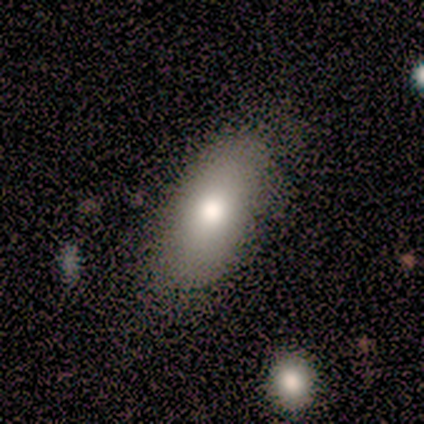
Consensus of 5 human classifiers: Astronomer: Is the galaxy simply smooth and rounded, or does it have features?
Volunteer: smooth — 60% (runner-up: featured or disk, 40%).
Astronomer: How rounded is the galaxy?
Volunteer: in between — 100%.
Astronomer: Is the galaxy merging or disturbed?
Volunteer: none — 60% (runner-up: minor disturbance, 40%).